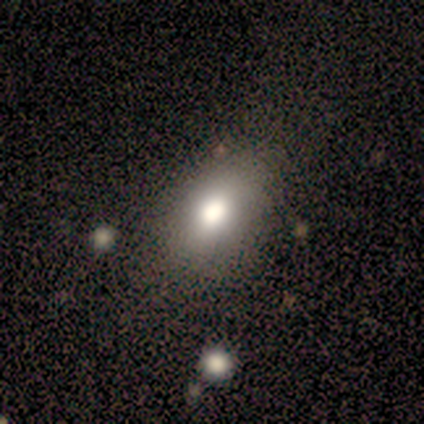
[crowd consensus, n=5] smooth-or-featured: smooth: 100% | featured or disk: 0% | star or artifact: 0%
  how-rounded: in between: 100% | round: 0% | cigar-shaped: 0%
  merging: minor disturbance: 60% | none: 20% | merger: 20% | major disturbance: 0%